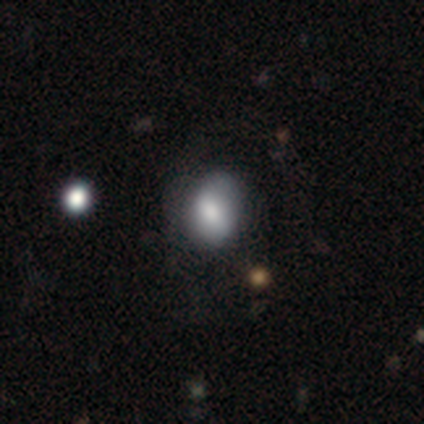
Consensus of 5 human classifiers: smooth-or-featured: smooth: 60% | featured or disk: 20% | star or artifact: 20%
  how-rounded: in between: 67% | round: 33% | cigar-shaped: 0%
  merging: none: 75% | minor disturbance: 25% | major disturbance: 0% | merger: 0%